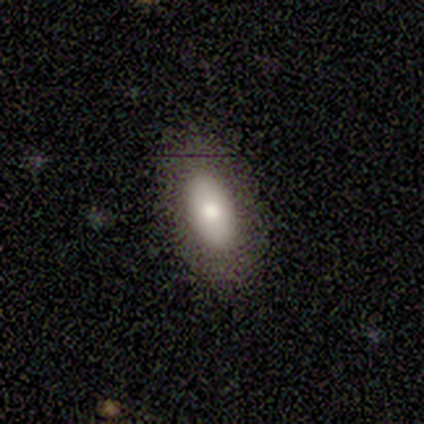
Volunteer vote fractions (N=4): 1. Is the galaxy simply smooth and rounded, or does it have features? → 75% smooth, 25% featured or disk, 0% star or artifact.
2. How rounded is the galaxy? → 100% in between, 0% round, 0% cigar-shaped.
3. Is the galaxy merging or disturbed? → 100% none, 0% minor disturbance, 0% major disturbance, 0% merger.